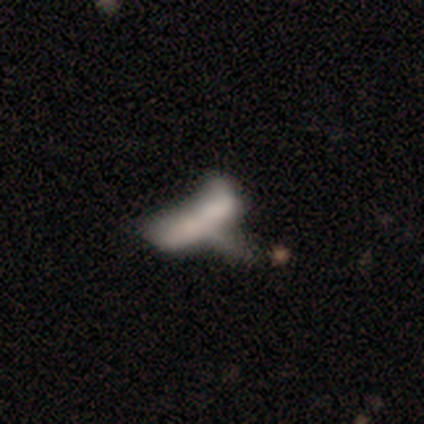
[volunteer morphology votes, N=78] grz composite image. It shows a smooth galaxy with no disk features (44%) that is in between round and cigar-shaped (74%). Merging: merger (36%).